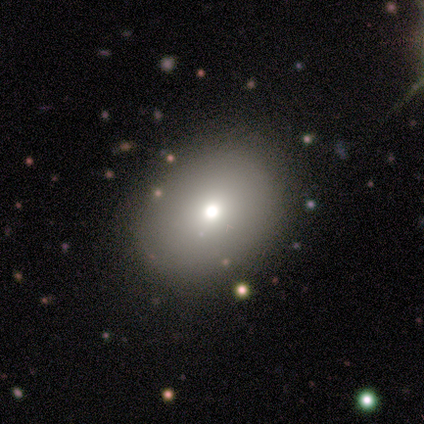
Smooth or featured: smooth — 67% (featured or disk — 22%)
How rounded: in between — 83% (round — 17%)
Merging: none — 88% (merger — 12%)